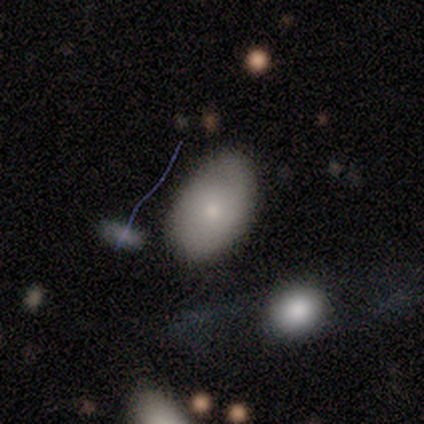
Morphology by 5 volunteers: Q: Smooth or featured?
A: smooth (100%)
Q: How rounded?
A: in between (100%)
Q: Merging?
A: none (60%); runner-up: minor disturbance (40%)